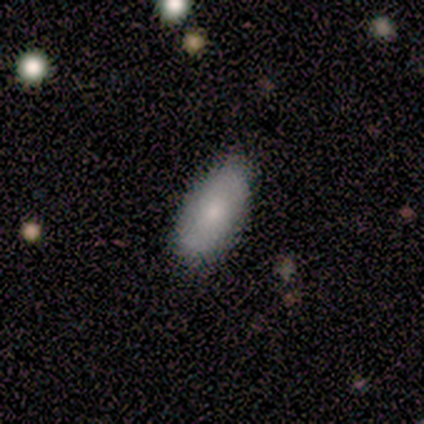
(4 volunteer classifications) Q: Smooth or featured?
A: smooth (100%)
Q: How rounded?
A: in between (100%)
Q: Merging?
A: none (75%); runner-up: minor disturbance (25%)